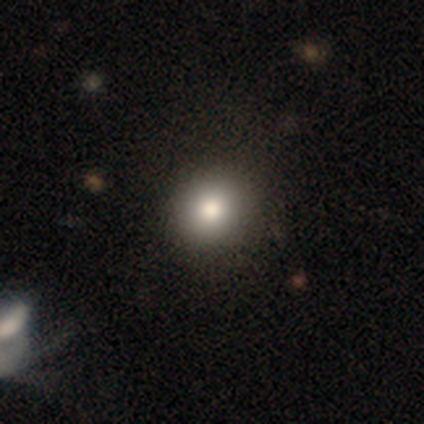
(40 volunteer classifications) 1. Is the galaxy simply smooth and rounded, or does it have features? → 88% smooth, 10% featured or disk, 2% star or artifact.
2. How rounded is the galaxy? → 83% round, 17% in between, 0% cigar-shaped.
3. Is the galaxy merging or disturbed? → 64% none, 5% minor disturbance, 0% major disturbance, 0% merger.